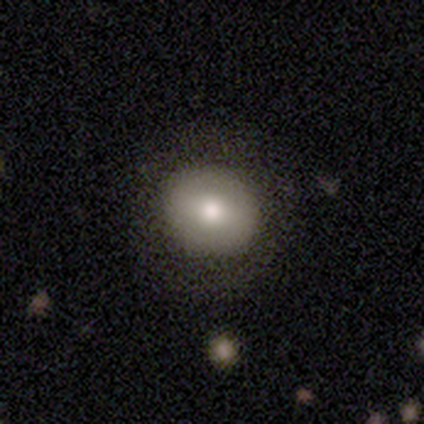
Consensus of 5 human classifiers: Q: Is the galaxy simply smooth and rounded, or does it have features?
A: smooth — 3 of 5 (60%).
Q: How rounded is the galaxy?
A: round — 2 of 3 (67%).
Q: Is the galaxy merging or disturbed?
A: none — 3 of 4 (75%).